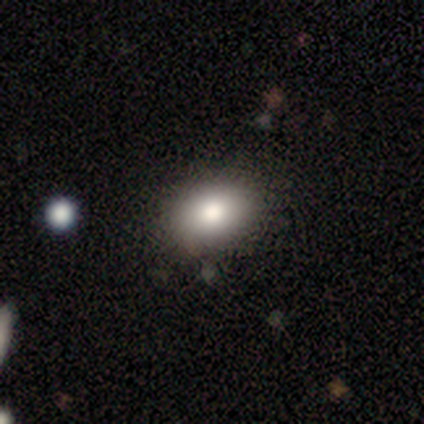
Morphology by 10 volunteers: A smooth galaxy with no disk features (60%) that is in between round and cigar-shaped (67%). Merging: none (90%).